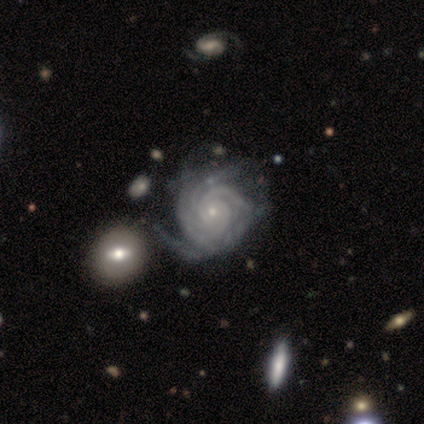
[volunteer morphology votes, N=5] Smooth or featured? featured or disk (100%)
Edge-on disk? no (100%)
Bar? no (80%)
Spiral arms? yes (100%)
Spiral winding? tight (80%)
Spiral arm count? 2 (40%)
Bulge size? small (100%)
Merging? minor disturbance (40%, tied with major disturbance)